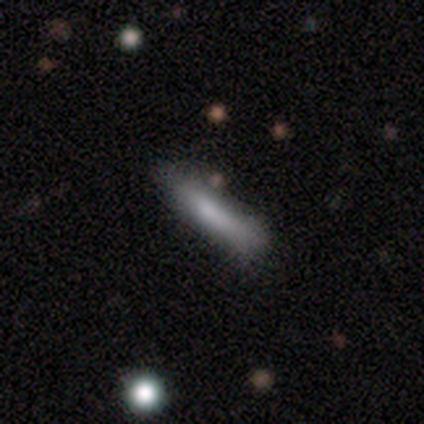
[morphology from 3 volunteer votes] Smooth or featured? 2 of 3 (67%) said smooth. How rounded? 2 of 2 (100%) said cigar-shaped. Merging? 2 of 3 (67%) said minor disturbance.